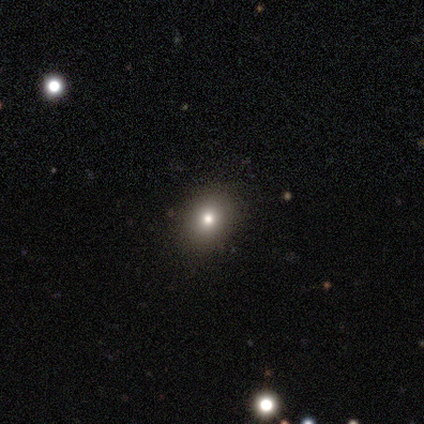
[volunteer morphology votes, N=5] Volunteers were most divided on "smooth or featured": smooth: 60%, star or artifact: 40%, featured or disk: 0%. More confident: merging — none (100%); how rounded — round (67%).